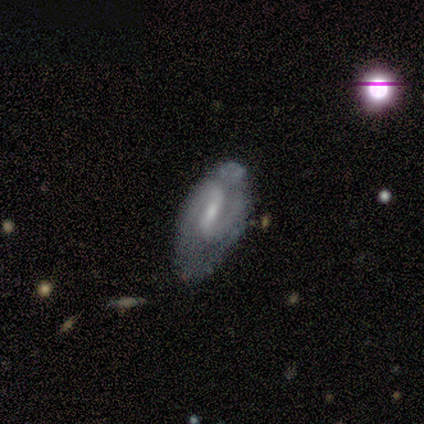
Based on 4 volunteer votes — featured or disk 100%, smooth 0%, star or artifact 0%. Down the decision tree: edge-on disk — no (100%); bar — weak (75%); spiral arms — yes (50%, tied with no); spiral arm count — 1 (50%, tied with 2); spiral winding — tight (100%); bulge size — small (50%); merging — none (50%, tied with minor disturbance).